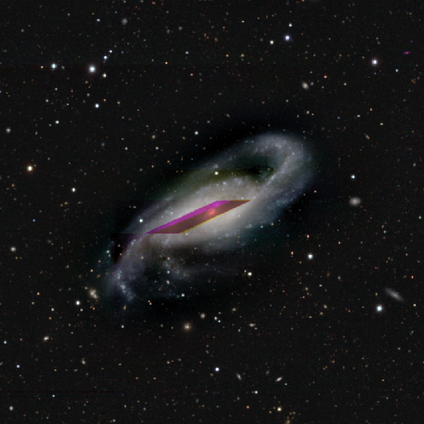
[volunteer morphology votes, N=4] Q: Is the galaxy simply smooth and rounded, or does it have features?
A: featured or disk — 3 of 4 (75%).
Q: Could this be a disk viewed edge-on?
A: no — 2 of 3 (67%).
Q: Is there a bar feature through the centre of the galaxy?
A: weak — 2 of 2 (100%).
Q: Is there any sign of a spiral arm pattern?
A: yes — 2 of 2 (100%).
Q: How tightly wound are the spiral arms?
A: loose — 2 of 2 (100%).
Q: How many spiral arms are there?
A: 2 — 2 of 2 (100%).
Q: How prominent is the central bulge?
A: small — 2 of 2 (100%).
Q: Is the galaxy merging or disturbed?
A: none — 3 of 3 (100%).